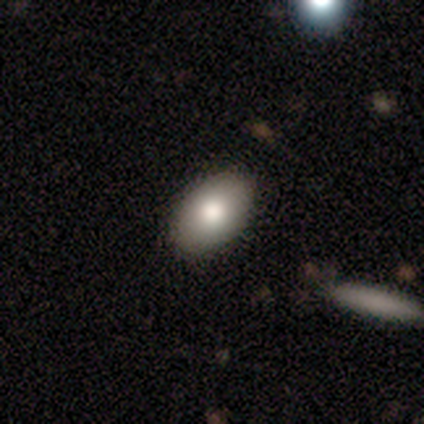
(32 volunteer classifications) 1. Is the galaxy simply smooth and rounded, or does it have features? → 81% smooth, 12% featured or disk, 6% star or artifact.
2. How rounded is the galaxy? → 81% in between, 15% round, 4% cigar-shaped.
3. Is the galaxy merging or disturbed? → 93% none, 7% minor disturbance, 0% major disturbance, 0% merger.